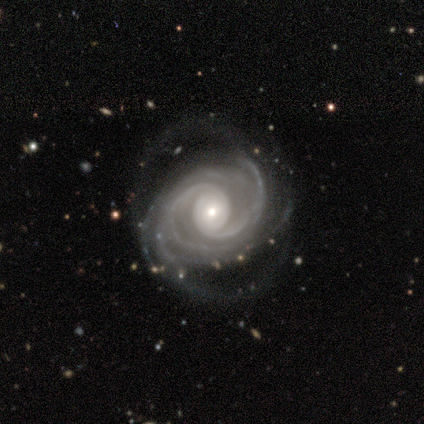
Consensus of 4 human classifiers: Smooth or featured: featured or disk — 75% (star or artifact — 25%)
Edge-on disk: no — 100%
Bar: no — 67% (strong — 33%)
Spiral arms: yes — 100%
Spiral winding: tight — 33% (tied with medium — 33%; loose — 33%)
Spiral arm count: 4 — 67% (2 — 33%)
Bulge size: moderate — 67% (small — 33%)
Merging: none — 100%